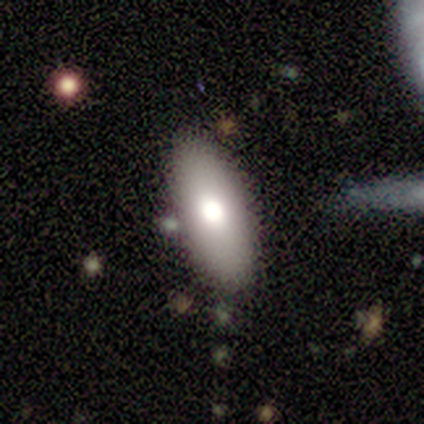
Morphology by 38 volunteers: Smooth or featured: smooth — 87% (featured or disk — 13%)
How rounded: in between — 88% (cigar-shaped — 12%)
Merging: none — 79% (minor disturbance — 16%)